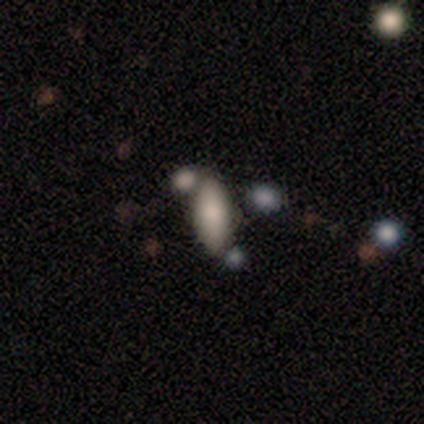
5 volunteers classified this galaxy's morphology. This is clearly a smooth galaxy (80%). How rounded: likely in between (75%). Merging: clearly none (100%).